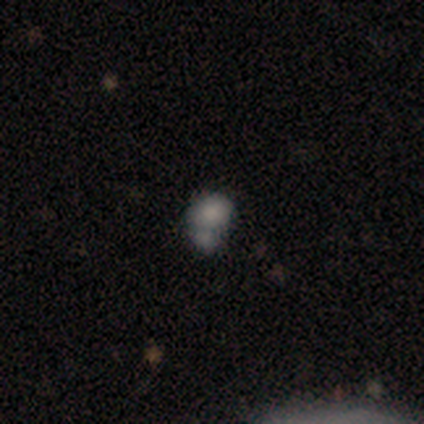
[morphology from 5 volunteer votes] smooth_or_featured: smooth (p=0.60) [alt: featured or disk p=0.20]
how_rounded: in between (p=0.67) [alt: round p=0.33]
merging: minor disturbance (p=0.50) [tied with: merger p=0.50]